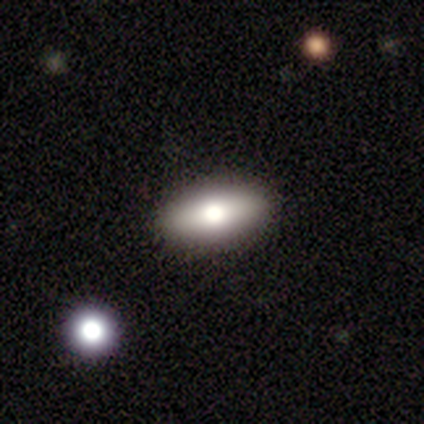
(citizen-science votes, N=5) Morphology: type=smooth (60%); roundness=in between (67%); merging=none (75%).